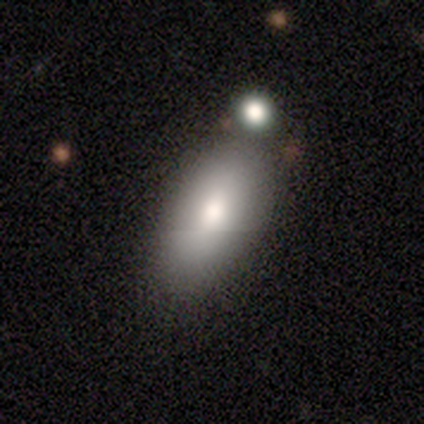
Smooth or featured?
  - smooth: 100% *
  - featured or disk: 0%
  - star or artifact: 0%
How rounded?
  - in between: 75% *
  - cigar-shaped: 25%
  - round: 0%
Merging?
  - minor disturbance: 75% *
  - none: 25%
  - major disturbance: 0%
  - merger: 0%